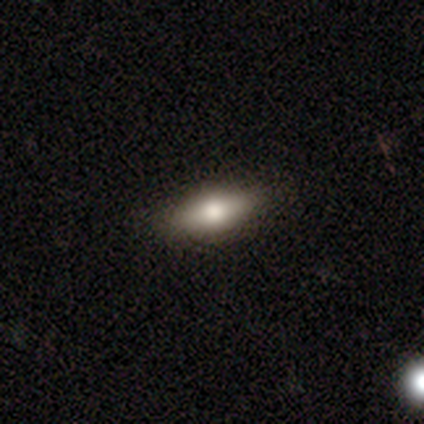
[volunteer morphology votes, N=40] type=smooth (68%); roundness=in between (70%); merging=none (88%).